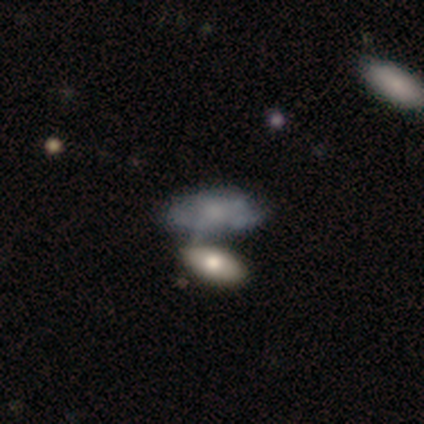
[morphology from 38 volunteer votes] Smooth or featured? smooth (55%)
How rounded? in between (86%)
Merging? merger (36%)